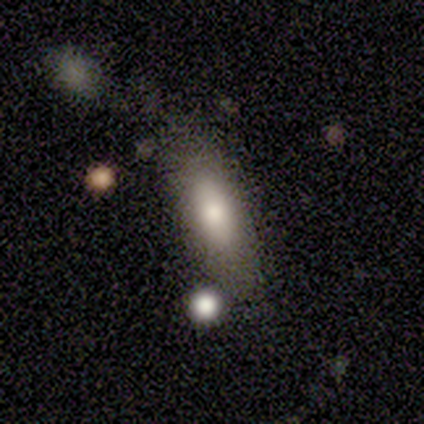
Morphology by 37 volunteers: Smooth or featured?
  - smooth: 65% *
  - featured or disk: 24%
  - star or artifact: 11%
How rounded?
  - in between: 83% *
  - cigar-shaped: 17%
  - round: 0%
Merging?
  - none: 67% *
  - minor disturbance: 12%
  - merger: 12%
  - major disturbance: 9%